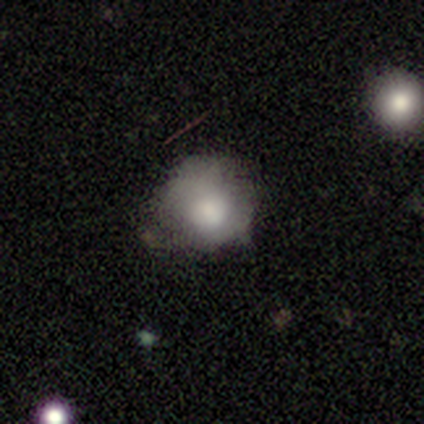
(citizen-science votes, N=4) This is clearly a smooth galaxy (100%). How rounded: possibly round (50%, tied with in between). Merging: likely minor disturbance (75%).